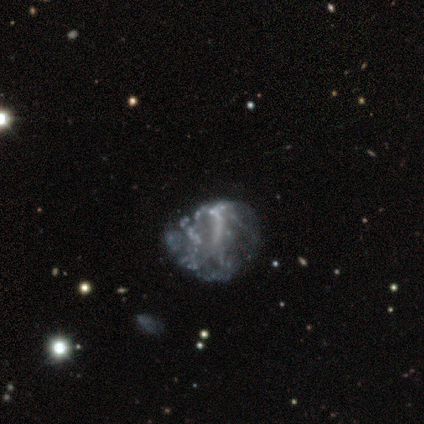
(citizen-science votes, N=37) A featured or disk galaxy (70%) with no bar (85%), no spiral arms (92%) and no central bulge (92%).

Vote fractions:
- Smooth or featured? featured or disk: 70% / smooth: 19% / star or artifact: 11%
- Edge-on disk? no: 100% / yes: 0%
- Bar? no: 85% / weak: 12% / strong: 4%
- Spiral arms? no: 92% / yes: 8%
- Bulge size? none: 92% / small: 8% / dominant: 0% / large: 0% / moderate: 0%
- Merging? none: 48% / major disturbance: 30% / minor disturbance: 15% / merger: 6%